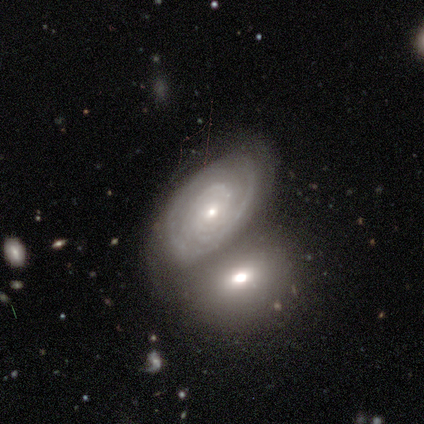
This is clearly a featured or disk galaxy (100%). It is clearly not viewed edge-on (100%). Bar: clearly no (100%). Spiral arm pattern: clearly yes (100%). Spiral arm count: clearly 1 (100%). Spiral winding: clearly tight (100%). Central bulge: clearly small (100%). Merging: clearly none (100%).